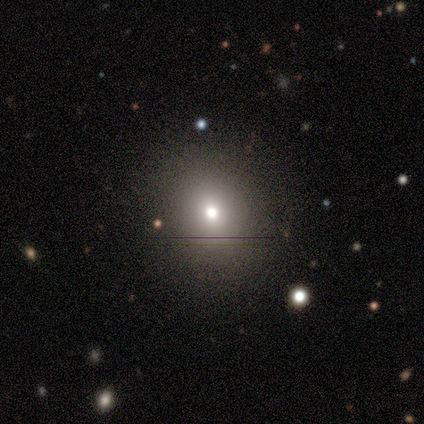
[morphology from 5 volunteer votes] This is clearly a smooth galaxy (100%). How rounded: clearly round (100%). Merging: clearly none (100%).